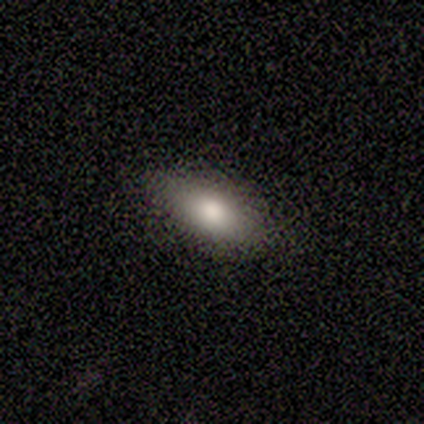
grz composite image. It shows a smooth galaxy with no disk features (75%) that is in between round and cigar-shaped (100%). Merging: none (100%).